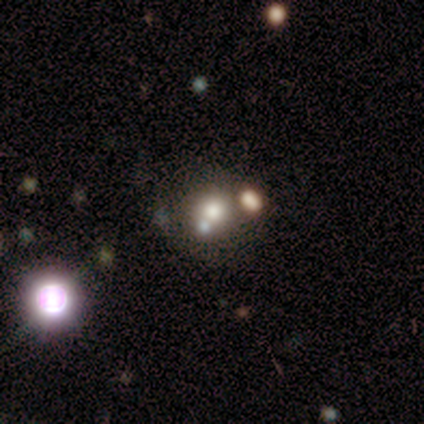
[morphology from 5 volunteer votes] Smooth or featured?
  - smooth: 40% * (tied)
  - featured or disk: 40% * (tied)
  - star or artifact: 20%
How rounded?
  - round: 100% *
  - in between: 0%
  - cigar-shaped: 0%
Merging?
  - none: 75% *
  - minor disturbance: 25%
  - major disturbance: 0%
  - merger: 0%